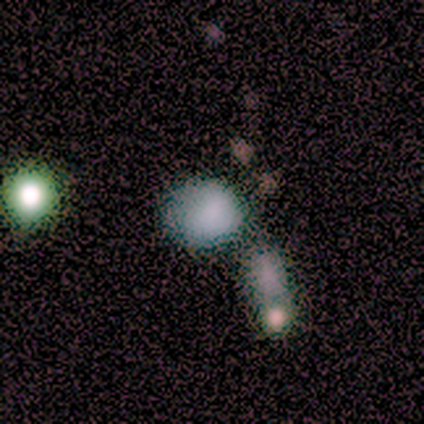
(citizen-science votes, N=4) Smooth or featured: smooth — 75% (star or artifact — 25%)
How rounded: round — 100%
Merging: none — 67% (merger — 33%)